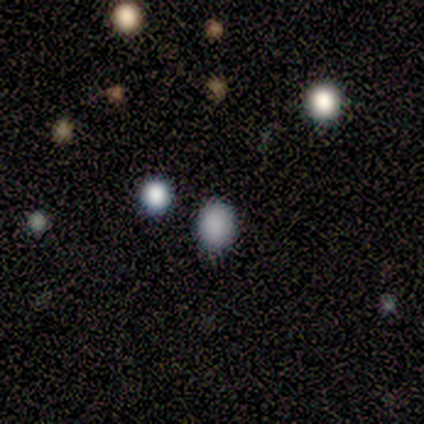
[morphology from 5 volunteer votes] This appears to be a smooth galaxy with no disk features (100%) that is round (60%). Merging: none (80%).